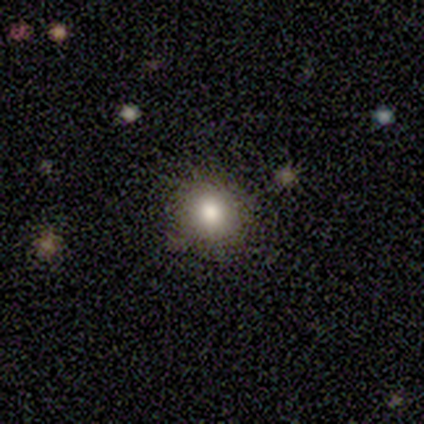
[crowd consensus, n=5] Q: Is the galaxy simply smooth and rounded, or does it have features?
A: smooth — 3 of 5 (60%).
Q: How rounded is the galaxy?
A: round — 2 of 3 (67%).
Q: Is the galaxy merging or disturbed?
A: none — 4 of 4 (100%).